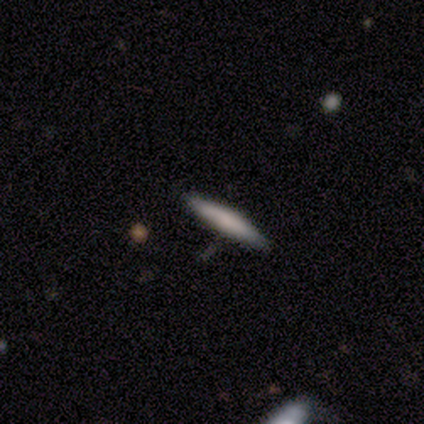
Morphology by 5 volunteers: Smooth or featured? 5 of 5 (100%) said smooth. How rounded? 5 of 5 (100%) said cigar-shaped. Merging? 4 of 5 (80%) said none.